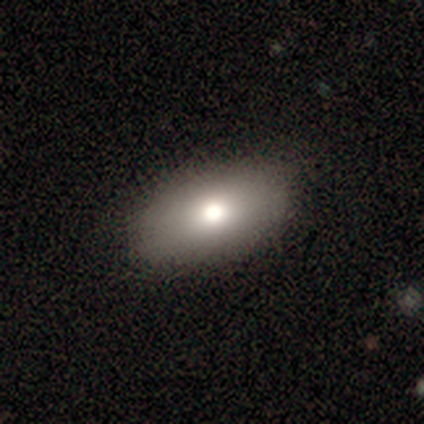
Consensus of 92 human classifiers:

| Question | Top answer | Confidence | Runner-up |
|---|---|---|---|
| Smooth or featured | smooth | 74% | featured or disk (20%) |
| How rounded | in between | 97% | round (3%) |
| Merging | none | 91% | minor disturbance (6%) |